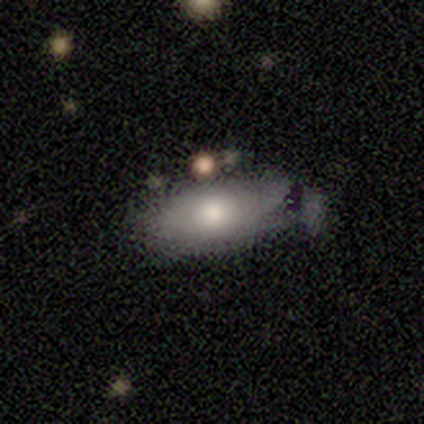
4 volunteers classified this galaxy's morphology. A smooth galaxy with no disk features (75%) that is in between round and cigar-shaped (100%). Merging: minor disturbance (50%).